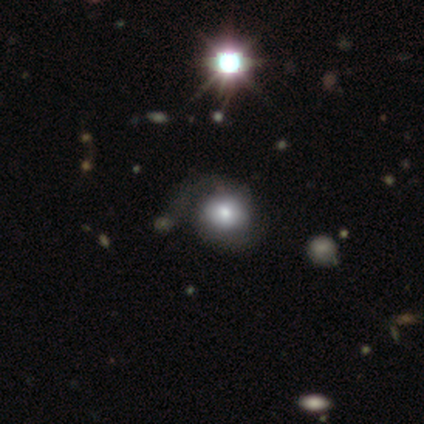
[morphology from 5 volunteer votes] Smooth or featured? 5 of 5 (100%) said featured or disk. Edge-on disk? 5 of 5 (100%) said no. Bar? 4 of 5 (80%) said no. Spiral arms? 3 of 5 (60%) said yes. Spiral winding? 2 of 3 (67%) said medium. Spiral arm count? 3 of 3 (100%) said 2. Bulge size? 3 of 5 (60%) said moderate. Merging? 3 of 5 (60%) said none.